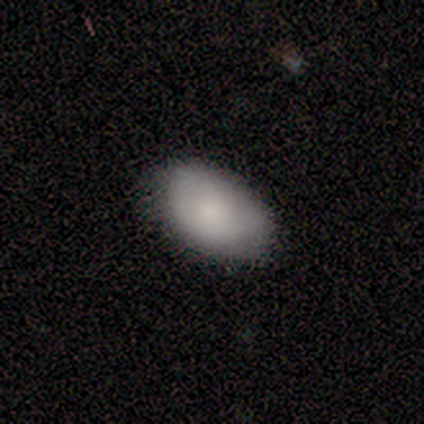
Volunteers were most divided on "merging" (2-way tie): none: 50%, minor disturbance: 50%, major disturbance: 0%, merger: 0%. More confident: smooth or featured — smooth (75%); how rounded — in between (67%).